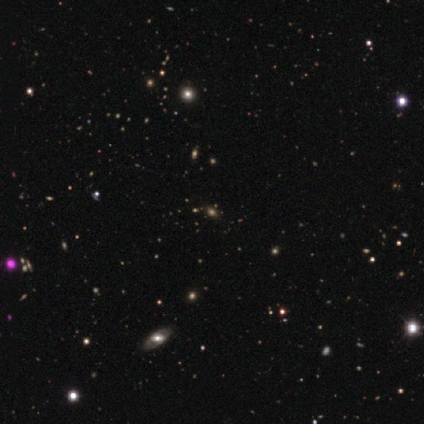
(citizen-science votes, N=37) Q: Smooth or featured?
A: star or artifact (57%); runner-up: smooth (22%)